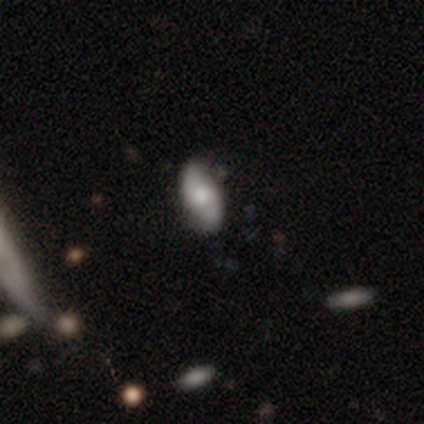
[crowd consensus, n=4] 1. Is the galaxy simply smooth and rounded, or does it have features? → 75% smooth, 25% featured or disk, 0% star or artifact.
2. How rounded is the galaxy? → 100% in between, 0% round, 0% cigar-shaped.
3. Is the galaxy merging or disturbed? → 50% minor disturbance, 25% none, 25% major disturbance, 0% merger.